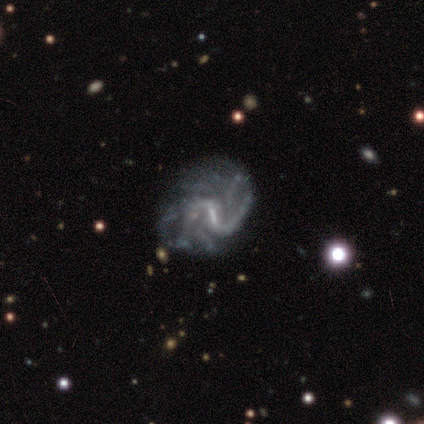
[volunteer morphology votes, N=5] Volunteers were most divided on "bar": strong: 60%, weak: 40%, no: 0%. More confident: smooth or featured — featured or disk (100%); edge-on disk — no (100%); spiral arms — yes (100%); spiral arm count — can't tell (60%); bulge size — small (60%); merging — major disturbance (60%); spiral winding — medium (60%).